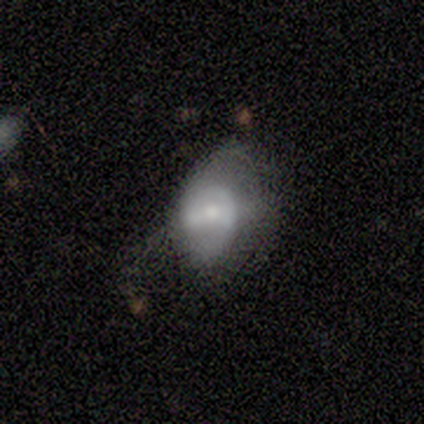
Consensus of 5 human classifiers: Smooth or featured: smooth — 60% (featured or disk — 20%)
How rounded: in between — 100%
Merging: none — 50% (minor disturbance — 25%)